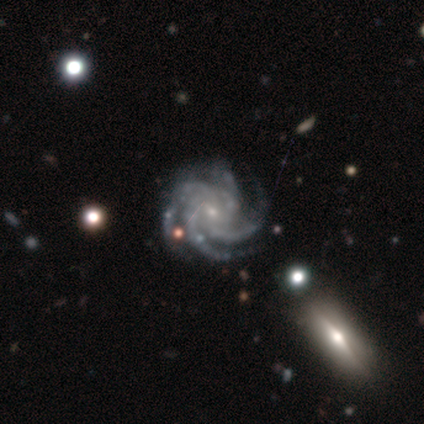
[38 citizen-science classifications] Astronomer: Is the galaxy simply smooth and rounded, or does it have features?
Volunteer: featured or disk — 97%.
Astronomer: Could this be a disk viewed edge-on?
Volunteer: no — 100%.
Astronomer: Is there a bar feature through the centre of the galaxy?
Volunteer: no — 51% (runner-up: weak, 41%).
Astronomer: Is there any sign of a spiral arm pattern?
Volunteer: yes — 100%.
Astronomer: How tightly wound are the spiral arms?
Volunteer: tight — 57% (runner-up: medium, 41%).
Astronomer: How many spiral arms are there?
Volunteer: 4 — 70%.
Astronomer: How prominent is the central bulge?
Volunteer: small — 81%.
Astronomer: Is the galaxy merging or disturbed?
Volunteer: none — 84%.